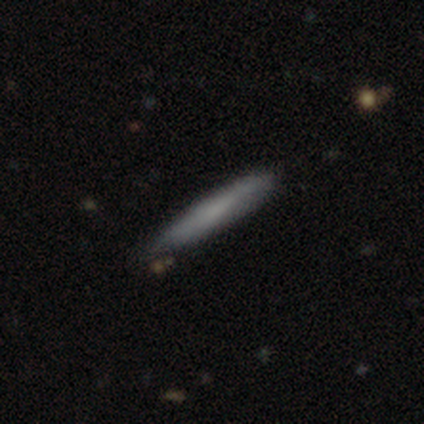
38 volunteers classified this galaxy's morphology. This is likely a smooth galaxy (63%). How rounded: clearly cigar-shaped (100%). Merging: likely none (78%).